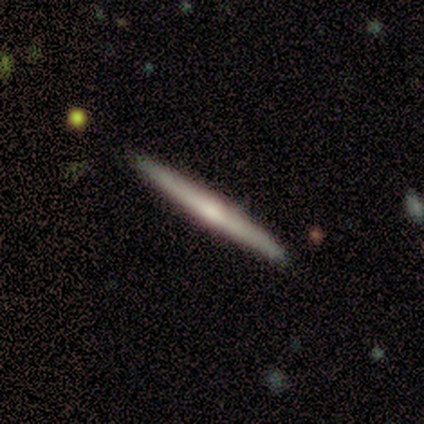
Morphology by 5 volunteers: smooth-or-featured: featured or disk: 100% | smooth: 0% | star or artifact: 0%
  disk-edge-on: yes: 100% | no: 0%
    edge-on-bulge: none: 40% (tied) | rounded: 40% (tied) | boxy: 20%
  merging: none: 80% | minor disturbance: 20% | major disturbance: 0% | merger: 0%